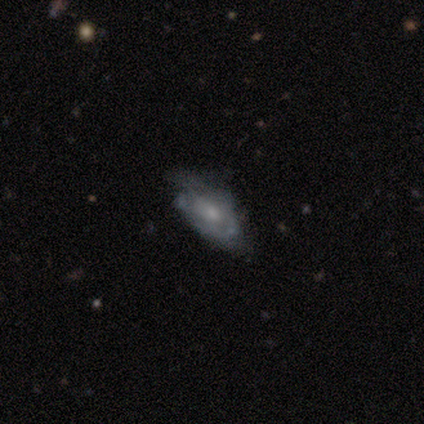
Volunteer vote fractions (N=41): A featured or disk galaxy (73%) with no bar (76%), tight (42%, tied with medium) spiral arms (66%) and a small central bulge (59%). Merging: none (33%).